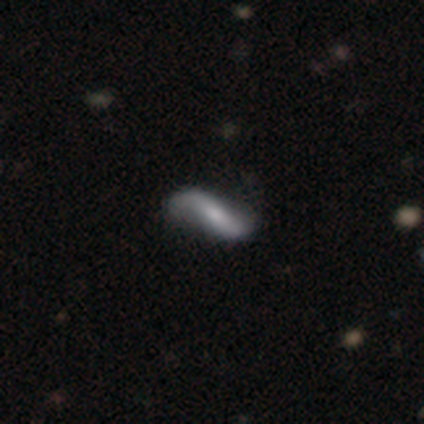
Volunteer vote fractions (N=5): Smooth or featured? featured or disk (80%)
Edge-on disk? no (100%)
Bar? strong (75%)
Spiral arms? yes (75%)
Spiral winding? loose (100%)
Spiral arm count? 2 (100%)
Bulge size? small (50%)
Merging? none (80%)